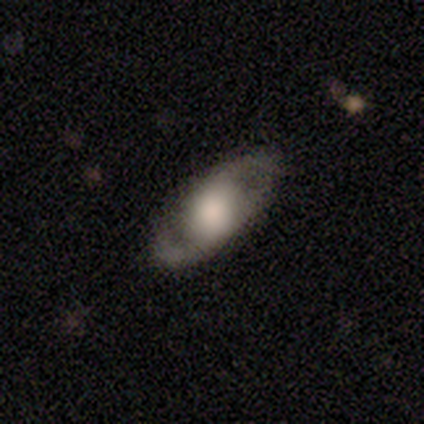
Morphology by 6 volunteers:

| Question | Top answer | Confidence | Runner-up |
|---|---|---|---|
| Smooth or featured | smooth | 50% | tied: featured or disk (50%) |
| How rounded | in between | 67% | cigar-shaped (33%) |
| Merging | none | 83% | minor disturbance (17%) |